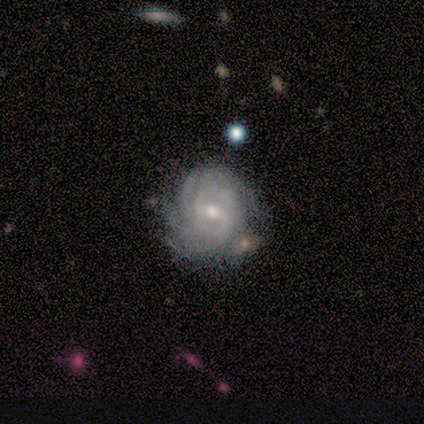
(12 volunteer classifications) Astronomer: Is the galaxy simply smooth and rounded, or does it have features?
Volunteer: featured or disk — 100%.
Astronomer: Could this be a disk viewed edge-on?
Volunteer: no — 100%.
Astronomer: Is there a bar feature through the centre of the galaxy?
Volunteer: weak — 58%.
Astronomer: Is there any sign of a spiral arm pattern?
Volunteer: yes — 100%.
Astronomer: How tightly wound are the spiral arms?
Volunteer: tight — 83%.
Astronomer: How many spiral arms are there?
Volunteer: can't tell — 42%.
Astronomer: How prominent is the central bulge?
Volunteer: small — 50% (runner-up: moderate, 42%).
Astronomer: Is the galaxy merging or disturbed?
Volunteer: none — 58%.